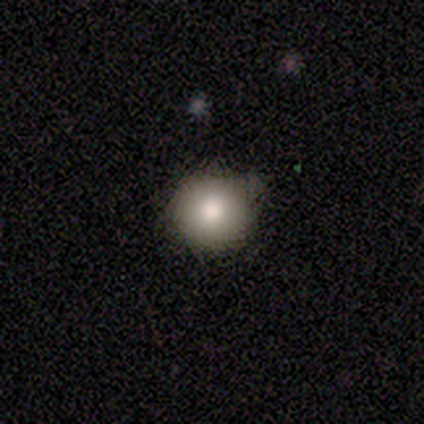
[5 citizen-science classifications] smooth-or-featured: smooth: 100% | featured or disk: 0% | star or artifact: 0%
  how-rounded: round: 100% | in between: 0% | cigar-shaped: 0%
  merging: none: 100% | minor disturbance: 0% | major disturbance: 0% | merger: 0%